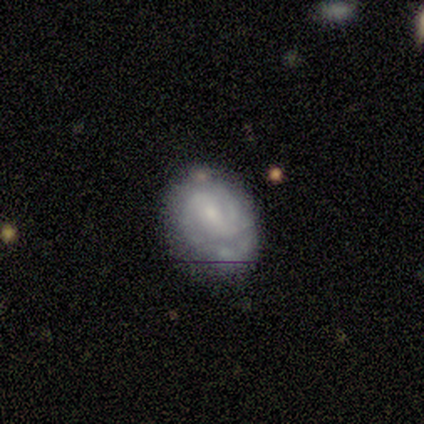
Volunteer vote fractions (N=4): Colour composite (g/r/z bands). It shows a featured or disk galaxy (100%) with no bar (50%), 2 (100%) tight (67%) spiral arms (75%) and a moderate central bulge (50%, tied with small). Merging: none (75%).